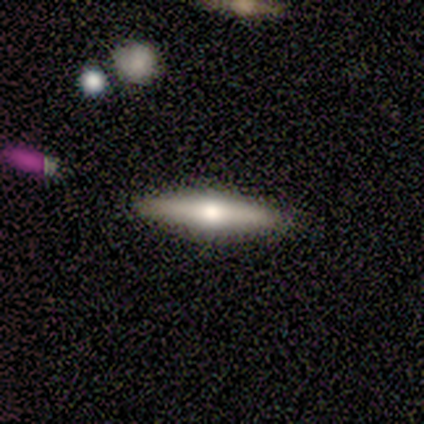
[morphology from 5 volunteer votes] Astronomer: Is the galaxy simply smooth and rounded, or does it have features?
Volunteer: featured or disk — 80%.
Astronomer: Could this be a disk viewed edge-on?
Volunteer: yes — 100%.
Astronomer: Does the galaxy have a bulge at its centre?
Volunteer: rounded — 100%.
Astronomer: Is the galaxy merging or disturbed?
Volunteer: none — 100%.